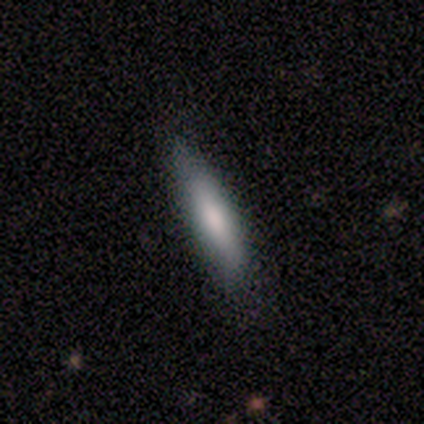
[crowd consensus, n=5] This appears to be a smooth galaxy with no disk features (80%) that is cigar-shaped (75%). Merging: none (75%).